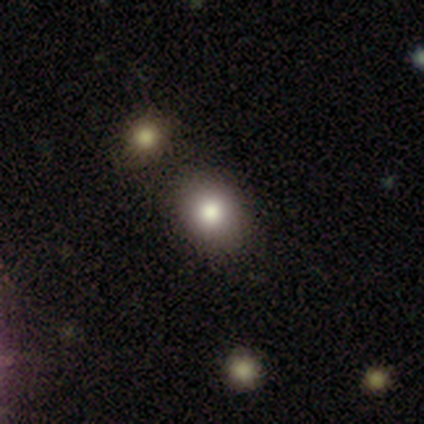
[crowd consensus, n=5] Smooth or featured? 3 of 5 (60%) said smooth. How rounded? 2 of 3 (67%) said round. Merging? 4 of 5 (80%) said none.